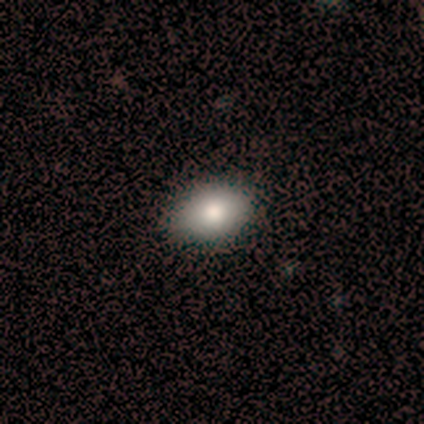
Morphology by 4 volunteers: Smooth or featured? 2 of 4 (50%) said smooth. How rounded? 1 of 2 (50%, tied with in between) said round. Merging? 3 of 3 (100%) said none.